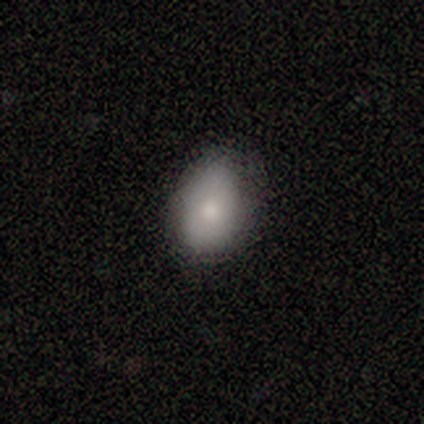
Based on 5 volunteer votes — Smooth or featured? smooth (60%)
How rounded? in between (100%)
Merging? minor disturbance (60%)